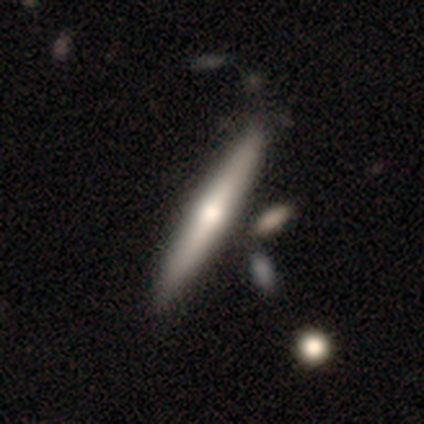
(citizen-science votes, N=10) smooth_or_featured: featured or disk (p=0.70) [alt: smooth p=0.20]
disk_edge_on: yes (p=1.00)
edge_on_bulge: rounded (p=0.71) [alt: none p=0.29]
merging: none (p=0.67) [alt: minor disturbance p=0.11]